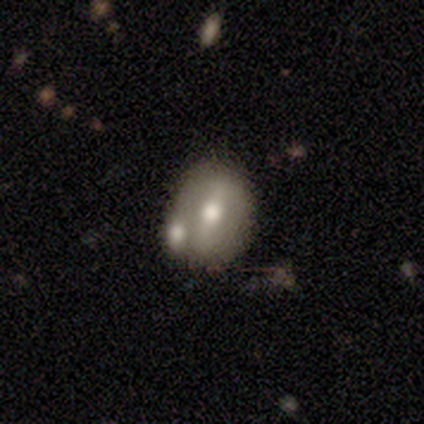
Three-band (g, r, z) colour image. It shows a smooth galaxy with no disk features (60%) that is in between round and cigar-shaped (67%). Merging: none (60%).